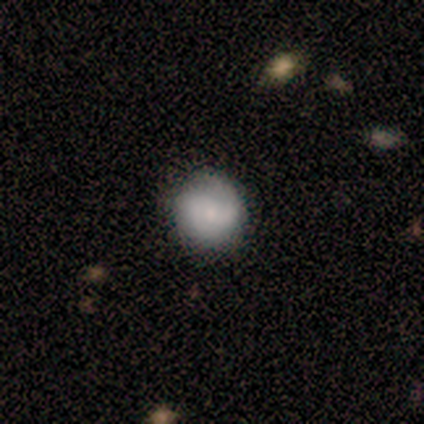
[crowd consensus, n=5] smooth-or-featured: smooth: 60% | featured or disk: 40% | star or artifact: 0%
  how-rounded: round: 100% | in between: 0% | cigar-shaped: 0%
  merging: none: 80% | minor disturbance: 20% | major disturbance: 0% | merger: 0%